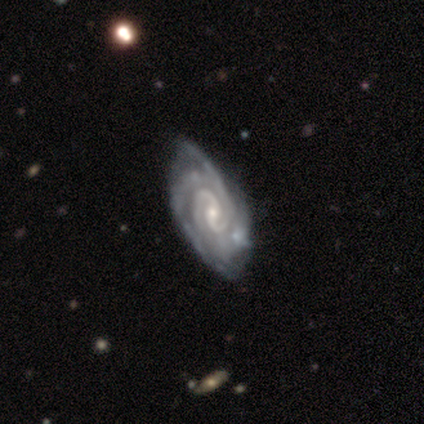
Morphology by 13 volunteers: Overall: featured or disk (85%). Edge-on disk: no (100%). Bar: weak (45%, tied with no). Spiral arms: yes (100%). Spiral arm count: 2 (64%; 3 27%). Spiral winding: tight (64%; medium 27%). Bulge size: small (82%). Merging: none (69%; minor disturbance 31%).